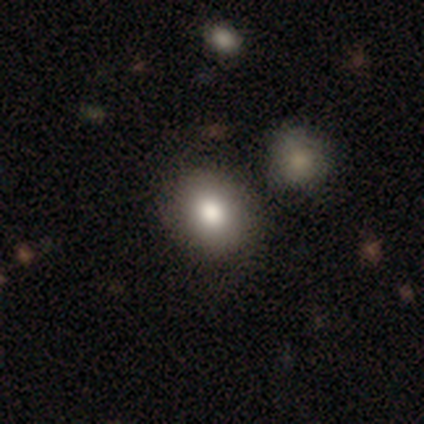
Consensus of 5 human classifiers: smooth 80%, featured or disk 20%, star or artifact 0%. Down the decision tree: how rounded — in between (100%); merging — none (60%).